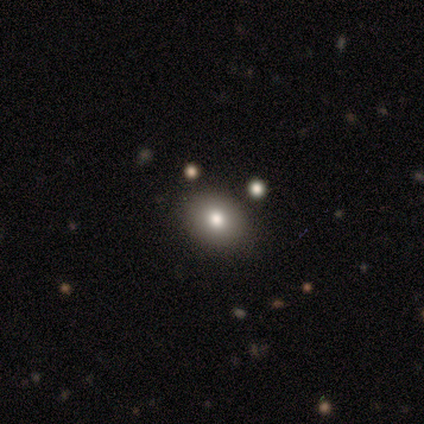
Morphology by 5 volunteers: This is clearly a smooth galaxy (80%). How rounded: likely in between (75%). Merging: clearly none (100%).